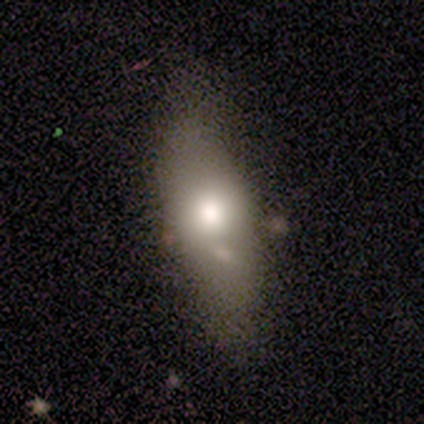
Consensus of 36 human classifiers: smooth 78%, featured or disk 19%, star or artifact 3%. Down the decision tree: how rounded — in between (75%); merging — none (80%).